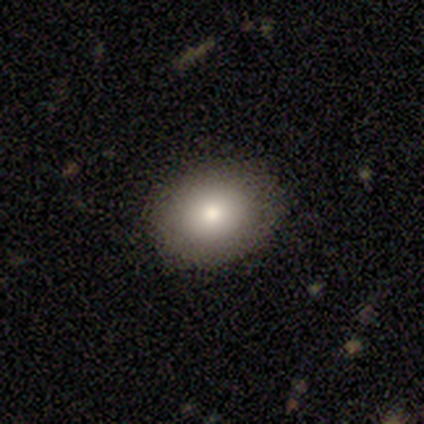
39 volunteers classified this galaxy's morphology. Smooth or featured? smooth (79%)
How rounded? in between (58%)
Merging? none (68%)